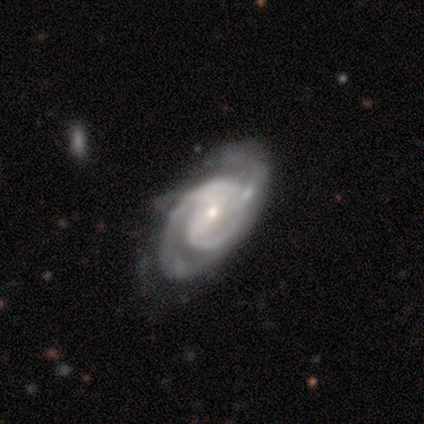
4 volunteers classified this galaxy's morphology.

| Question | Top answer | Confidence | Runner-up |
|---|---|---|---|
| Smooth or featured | featured or disk | 100% | — |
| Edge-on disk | no | 100% | — |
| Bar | strong | 50% | tied: weak (50%) |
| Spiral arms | yes | 100% | — |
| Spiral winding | tight | 100% | — |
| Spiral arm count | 2 | 75% | 3 (25%) |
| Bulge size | small | 100% | — |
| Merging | none | 75% | major disturbance (25%) |